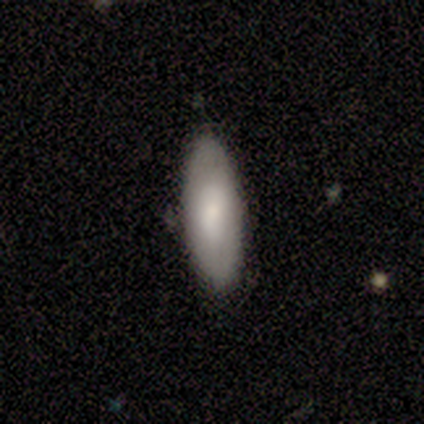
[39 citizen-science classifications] Smooth or featured?
  - smooth: 82% *
  - featured or disk: 18%
  - star or artifact: 0%
How rounded?
  - in between: 75% *
  - cigar-shaped: 25%
  - round: 0%
Merging?
  - none: 87% *
  - minor disturbance: 10%
  - merger: 3%
  - major disturbance: 0%